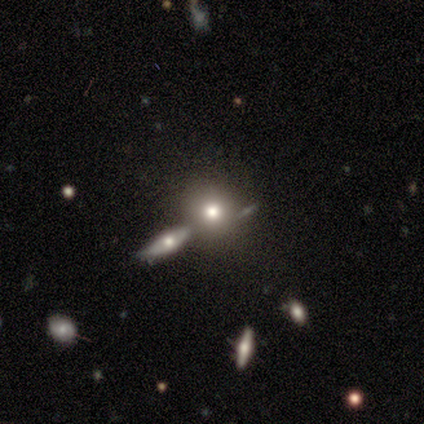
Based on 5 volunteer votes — This is clearly a smooth galaxy (100%). How rounded: clearly round (100%). Merging: clearly none (100%).